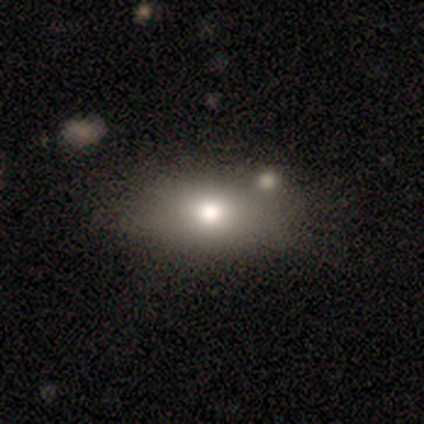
Overall: smooth (100%). How rounded: round (50%, tied with in between). Merging: none (100%).